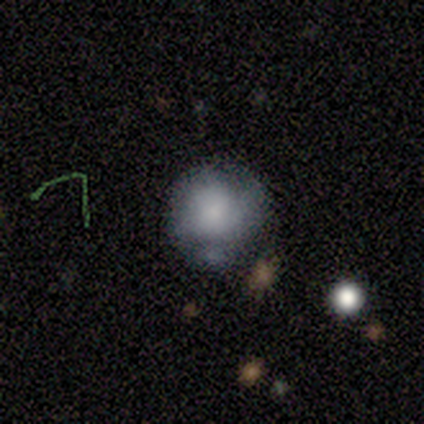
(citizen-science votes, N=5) This appears to be a smooth galaxy with no disk features (100%) that is round (100%). Merging: none (40%, tied with minor disturbance).